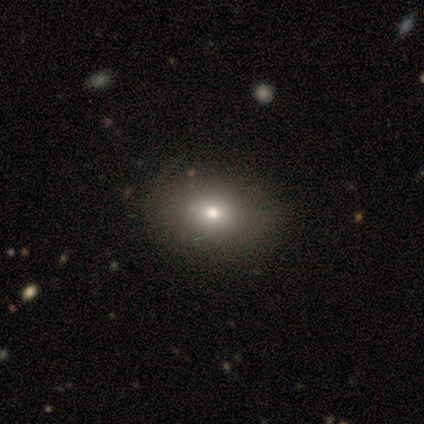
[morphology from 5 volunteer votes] Smooth or featured? 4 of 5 (80%) said smooth. How rounded? 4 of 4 (100%) said in between. Merging? 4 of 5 (80%) said none.